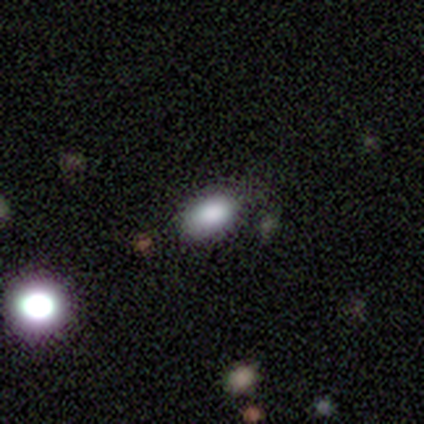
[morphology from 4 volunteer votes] This appears to be a smooth galaxy with no disk features (100%) that is in between round and cigar-shaped (100%). Merging: none (100%).